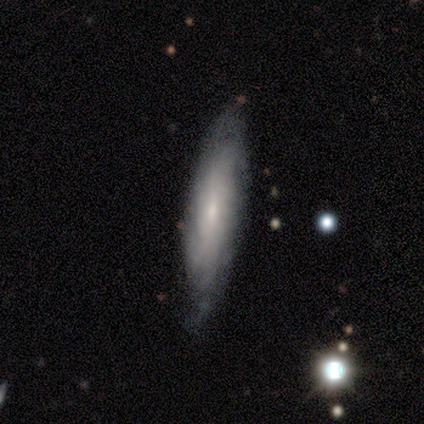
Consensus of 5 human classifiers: A featured or disk galaxy (60%) viewed edge-on (67%) with no central bulge (50%, tied with rounded). Merging: none (80%).